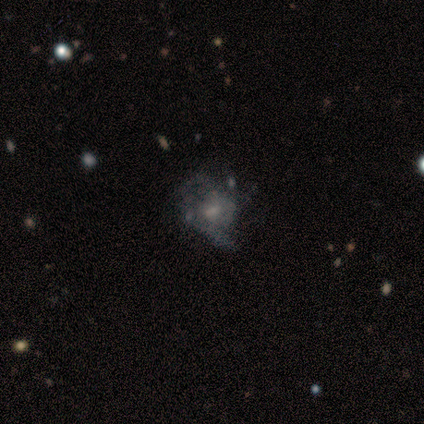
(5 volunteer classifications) This is likely a smooth galaxy (60%). How rounded: likely in between (67%). Merging: clearly major disturbance (80%).